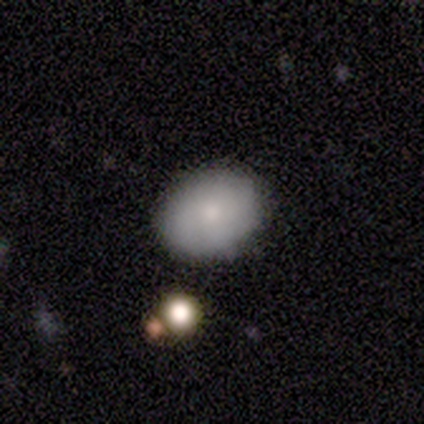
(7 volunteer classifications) smooth 71%, featured or disk 14%, star or artifact 14%. Down the decision tree: how rounded — round (60%); merging — none (83%).